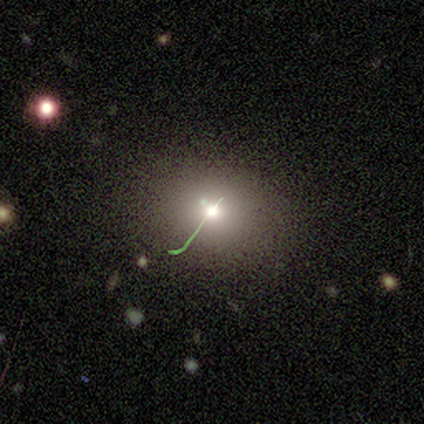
Morphology: type=star or artifact (67%).